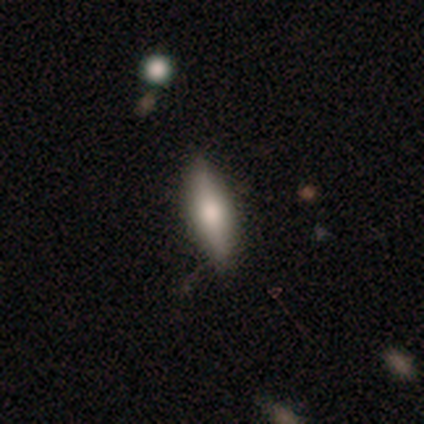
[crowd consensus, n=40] Q: Smooth or featured?
A: smooth (65%); runner-up: featured or disk (28%)
Q: How rounded?
A: cigar-shaped (62%); runner-up: in between (38%)
Q: Merging?
A: none (86%); runner-up: minor disturbance (11%)